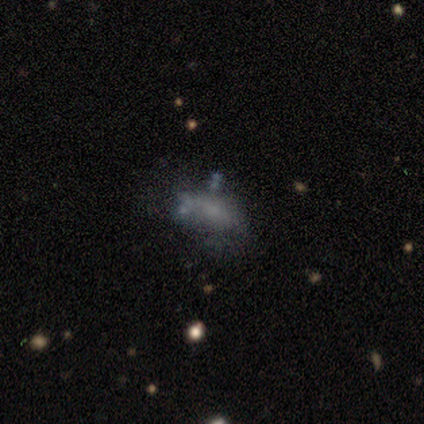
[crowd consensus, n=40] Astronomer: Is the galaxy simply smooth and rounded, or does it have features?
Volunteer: smooth — 48% (runner-up: featured or disk, 32%).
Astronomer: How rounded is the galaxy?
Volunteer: in between — 74%.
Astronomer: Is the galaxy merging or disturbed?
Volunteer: none — 44% (runner-up: minor disturbance, 25%).